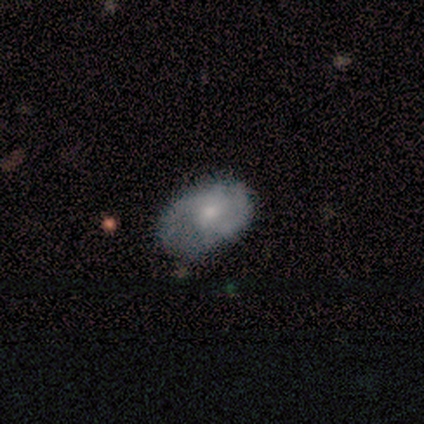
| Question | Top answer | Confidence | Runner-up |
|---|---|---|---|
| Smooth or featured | featured or disk | 58% | smooth (35%) |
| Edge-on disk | no | 100% | — |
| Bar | no | 67% | weak (28%) |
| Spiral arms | yes | 78% | no (22%) |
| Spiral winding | medium | 43% | tight (36%) |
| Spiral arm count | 2 | 64% | 1 (21%) |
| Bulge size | moderate | 44% | small (39%) |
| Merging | none | 45% | minor disturbance (38%) |